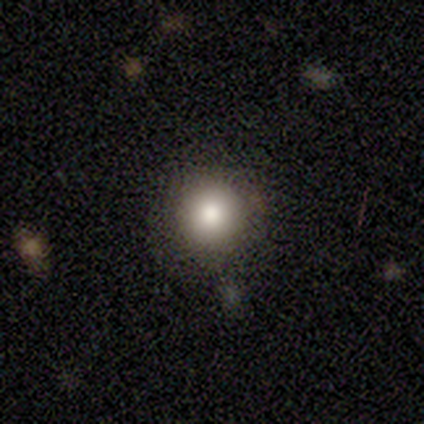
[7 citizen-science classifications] Smooth or featured? smooth (71%)
How rounded? round (100%)
Merging? none (83%)